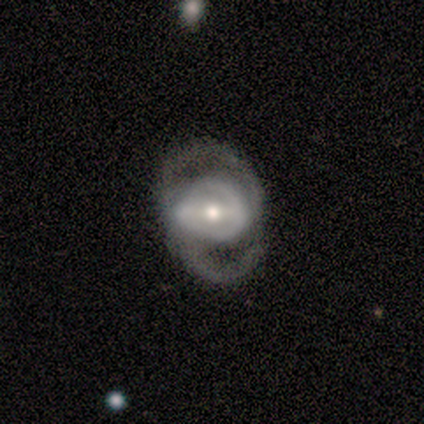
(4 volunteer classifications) A featured or disk galaxy (75%) with a strong bar (100%), 2 (100%) medium (67%) spiral arms (100%) and a moderate central bulge (67%).

Vote fractions:
- Smooth or featured? featured or disk: 75% / smooth: 25% / star or artifact: 0%
- Edge-on disk? no: 100% / yes: 0%
- Bar? strong: 100% / weak: 0% / no: 0%
- Spiral arms? yes: 100% / no: 0%
- Spiral winding? medium: 67% / tight: 33% / loose: 0%
- Spiral arm count? 2: 100% / 1: 0% / 3: 0% / 4: 0% / more than 4: 0% / can't tell: 0%
- Bulge size? moderate: 67% / small: 33% / dominant: 0% / large: 0% / none: 0%
- Merging? none: 75% / minor disturbance: 25% / major disturbance: 0% / merger: 0%